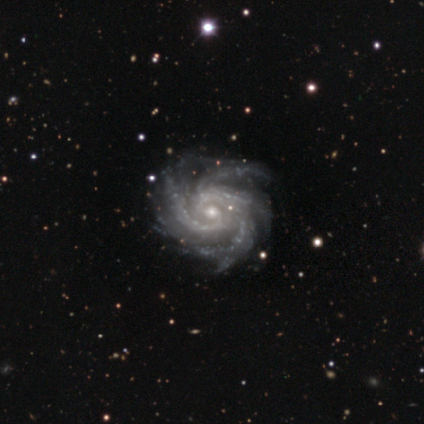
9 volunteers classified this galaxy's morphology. smooth_or_featured: featured or disk (p=1.00)
disk_edge_on: no (p=1.00)
bar: no (p=0.78) [alt: weak p=0.22]
has_spiral_arms: yes (p=1.00)
spiral_winding: medium (p=0.56) [alt: tight p=0.44]
spiral_arm_count: 4 (p=0.67) [alt: 2 p=0.11]
bulge_size: moderate (p=0.56) [alt: small p=0.44]
merging: none (p=0.78) [alt: minor disturbance p=0.11]